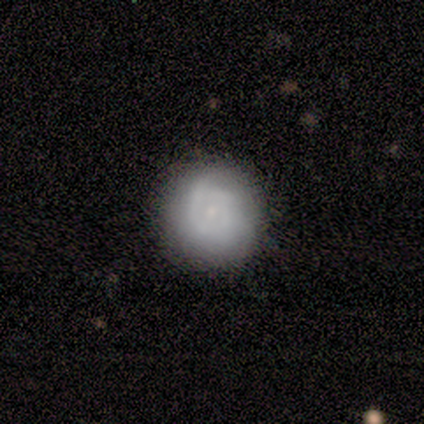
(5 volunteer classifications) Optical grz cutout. It shows a smooth galaxy with no disk features (60%) that is round (100%). Merging: minor disturbance (60%).